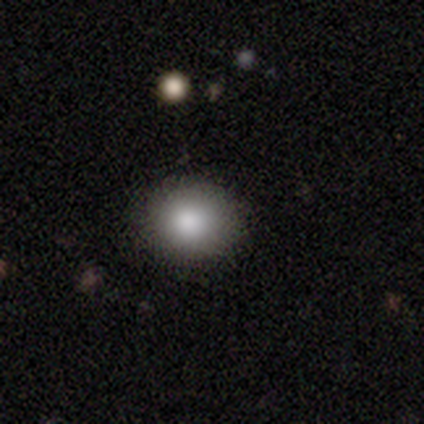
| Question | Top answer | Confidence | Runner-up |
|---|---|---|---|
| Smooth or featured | smooth | 100% | — |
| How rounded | round | 75% | in between (25%) |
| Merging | none | 100% | — |